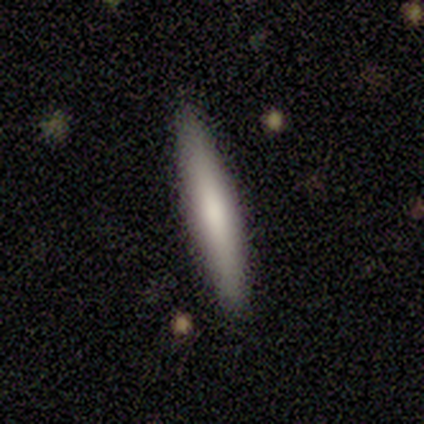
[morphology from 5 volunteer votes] A smooth galaxy with no disk features (100%) that is cigar-shaped (100%). Merging: none (100%).